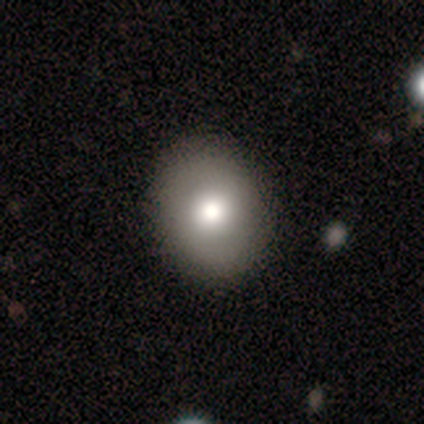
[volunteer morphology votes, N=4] Overall: smooth (100%). How rounded: round (50%, tied with in between). Merging: none (100%).